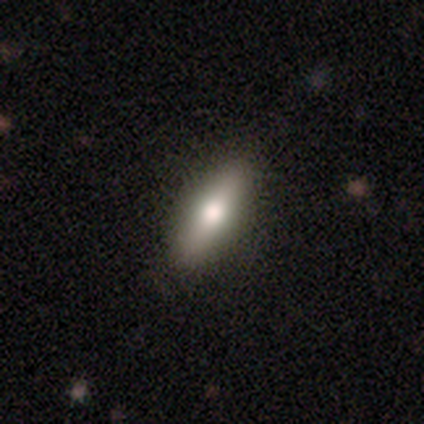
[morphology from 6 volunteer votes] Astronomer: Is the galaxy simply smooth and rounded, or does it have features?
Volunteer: smooth — 50%, tied with featured or disk at 50%.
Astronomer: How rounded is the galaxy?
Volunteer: in between — 67%.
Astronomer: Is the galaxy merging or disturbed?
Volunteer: none — 83%.